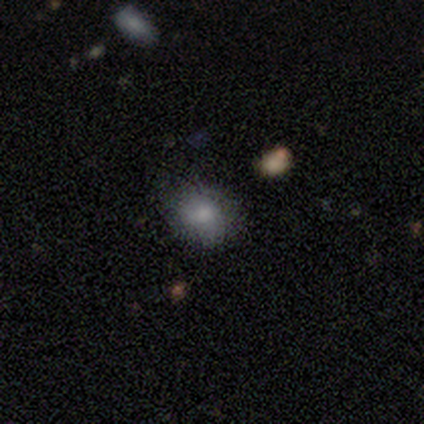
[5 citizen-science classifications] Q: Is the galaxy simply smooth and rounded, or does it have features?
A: smooth — 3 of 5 (60%).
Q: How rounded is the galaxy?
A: round — 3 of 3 (100%).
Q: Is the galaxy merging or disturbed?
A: none — 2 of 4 (50%, tied with minor disturbance).